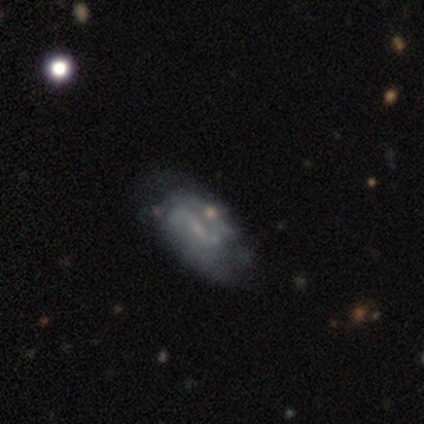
smooth_or_featured: featured or disk (p=1.00)
disk_edge_on: no (p=1.00)
bar: strong (p=0.60) [alt: weak p=0.20]
has_spiral_arms: yes (p=0.80) [alt: no p=0.20]
spiral_winding: medium (p=0.75) [alt: loose p=0.25]
spiral_arm_count: 2 (p=0.75) [alt: can't tell p=0.25]
bulge_size: small (p=0.40) [tied with: none p=0.40]
merging: none (p=0.60) [alt: minor disturbance p=0.20]